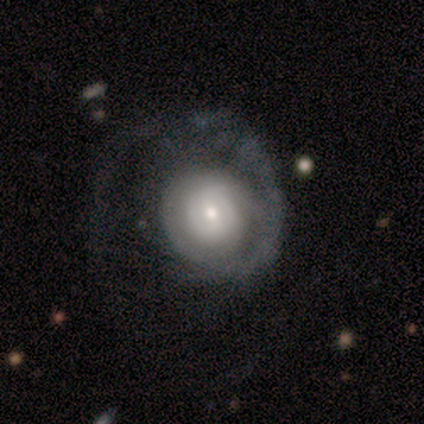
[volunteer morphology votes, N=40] type=featured or disk (75%); edge-on=no (100%); bar=no (73%); spiral arms=yes (73%); winding=tight (45%); arm count=1 (50%); bulge=moderate (50%); merging=none (32%, tied with major disturbance).